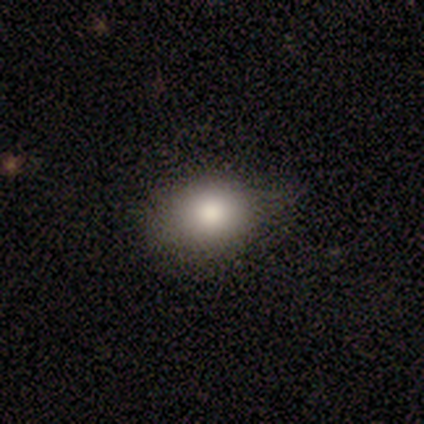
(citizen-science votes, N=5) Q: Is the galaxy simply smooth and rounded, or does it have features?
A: smooth — 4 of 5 (80%).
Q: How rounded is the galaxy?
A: round — 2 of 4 (50%, tied with in between).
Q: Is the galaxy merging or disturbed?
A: none — 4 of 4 (100%).